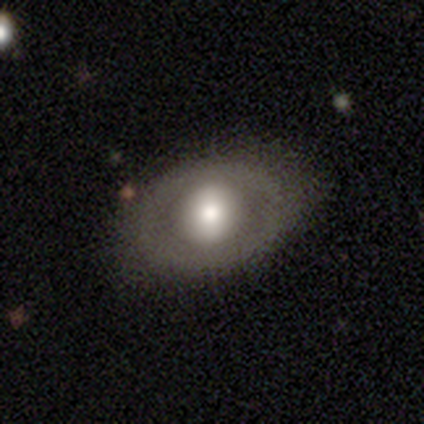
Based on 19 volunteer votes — This is possibly a smooth galaxy (53%). How rounded: clearly round (80%). Merging: likely none (79%).